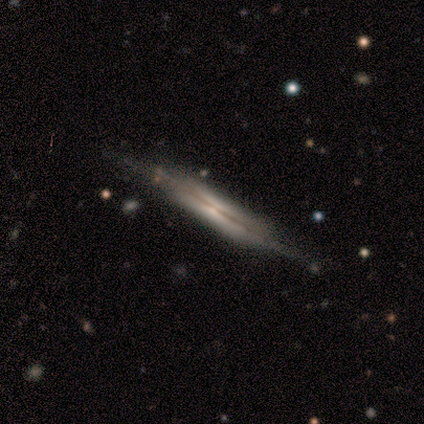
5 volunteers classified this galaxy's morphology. Smooth or featured? 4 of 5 (80%) said featured or disk. Edge-on disk? 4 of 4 (100%) said yes. Edge-on bulge? 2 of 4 (50%, tied with none) said boxy. Merging? 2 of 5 (40%, tied with minor disturbance) said none.